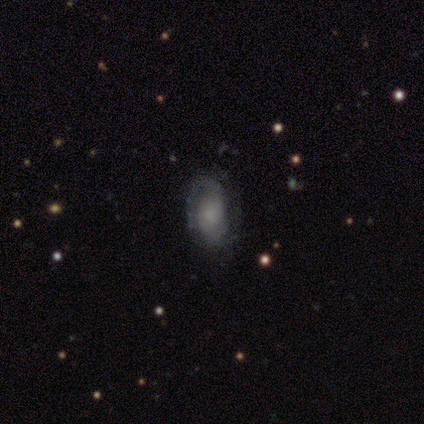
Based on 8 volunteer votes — Q: Smooth or featured?
A: smooth (50%); runner-up: featured or disk (38%)
Q: How rounded?
A: in between (100%)
Q: Merging?
A: none (71%); runner-up: minor disturbance (14%)